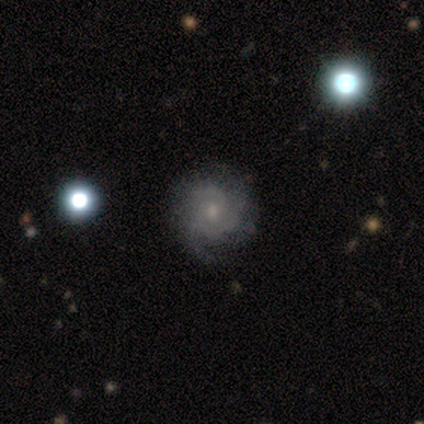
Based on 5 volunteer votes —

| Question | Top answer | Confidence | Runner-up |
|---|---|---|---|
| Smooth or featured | featured or disk | 100% | — |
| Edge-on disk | no | 100% | — |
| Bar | weak | 60% | no (40%) |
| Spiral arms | yes | 100% | — |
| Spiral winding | tight | 60% | medium (20%) |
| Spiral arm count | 2 | 60% | 3 (20%) |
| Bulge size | small | 80% | moderate (20%) |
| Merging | none | 100% | — |